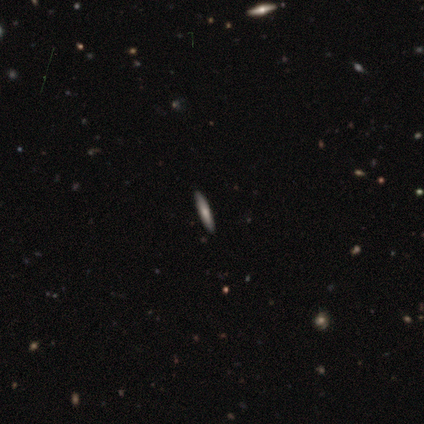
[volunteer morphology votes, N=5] This appears to be a featured or disk galaxy (60%) viewed edge-on (100%) with no central bulge (67%). Merging: none (100%).